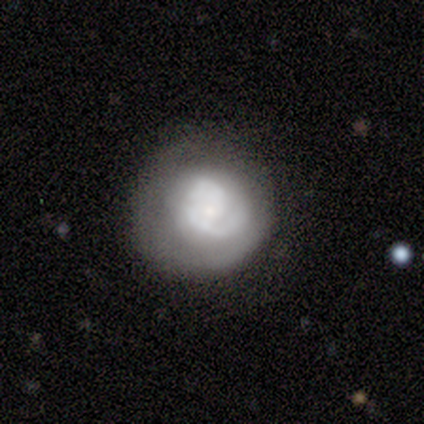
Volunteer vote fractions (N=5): smooth-or-featured: featured or disk: 80% | smooth: 20% | star or artifact: 0%
  disk-edge-on: no: 75% | yes: 25%
    bar: no: 67% | weak: 33% | strong: 0%
    has-spiral-arms: yes: 67% | no: 33%
      spiral-winding: tight: 50% (tied) | medium: 50% (tied) | loose: 0%
      spiral-arm-count: 1: 100% | 2: 0% | 3: 0% | 4: 0% | more than 4: 0% | can't tell: 0%
    bulge-size: dominant: 33% (tied) | moderate: 33% (tied) | none: 33% (tied) | large: 0% | small: 0%
  merging: none: 80% | minor disturbance: 20% | major disturbance: 0% | merger: 0%